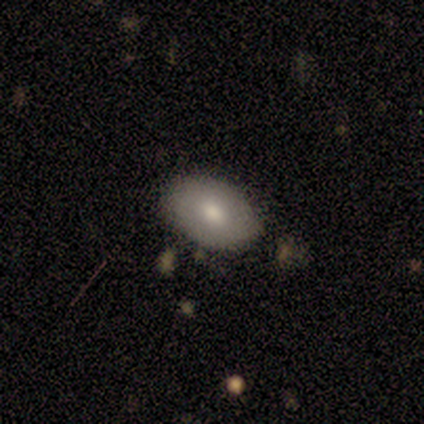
Smooth or featured?
  - smooth: 57% *
  - featured or disk: 43%
  - star or artifact: 0%
How rounded?
  - in between: 75% *
  - round: 25%
  - cigar-shaped: 0%
Merging?
  - none: 86% *
  - minor disturbance: 14%
  - major disturbance: 0%
  - merger: 0%